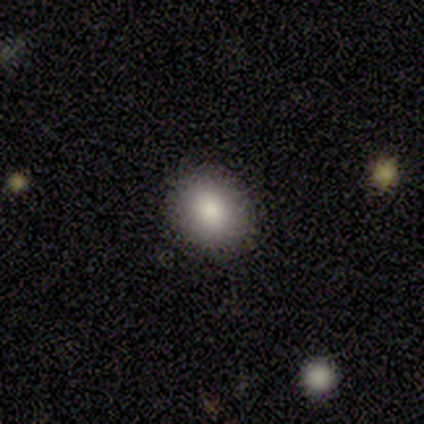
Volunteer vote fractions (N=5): smooth 60%, featured or disk 40%, star or artifact 0%. Down the decision tree: how rounded — in between (67%); merging — none (100%).